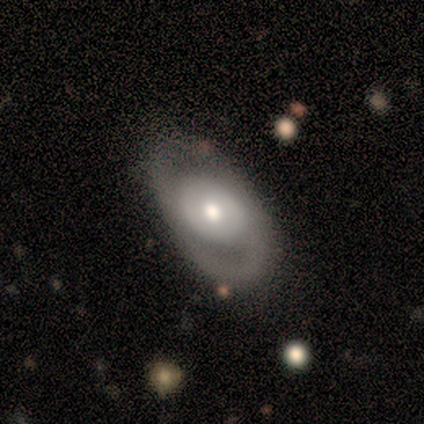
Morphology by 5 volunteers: type=featured or disk (100%); edge-on=no (80%); bar=no (100%); spiral arms=no (75%); bulge=moderate (75%); merging=none (100%).